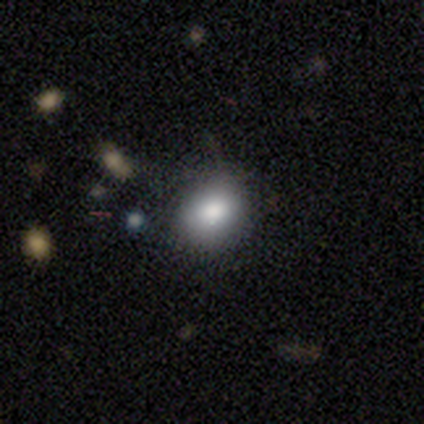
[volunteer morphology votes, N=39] Smooth or featured? smooth (85%)
How rounded? round (58%)
Merging? none (69%)